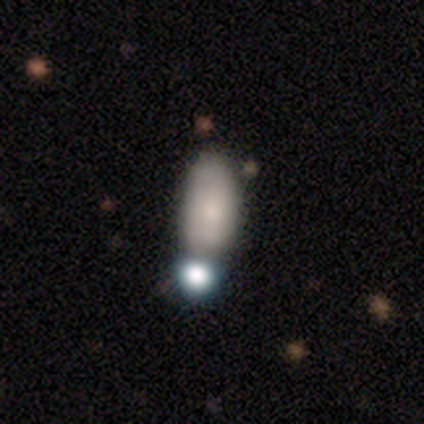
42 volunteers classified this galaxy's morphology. smooth 67%, featured or disk 17%, star or artifact 17%. Down the decision tree: how rounded — in between (93%); merging — none (46%).